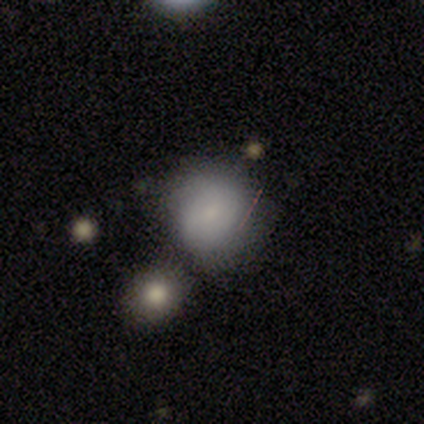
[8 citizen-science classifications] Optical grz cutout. It shows a smooth galaxy with no disk features (62%) that is round (80%). Merging: none (75%).